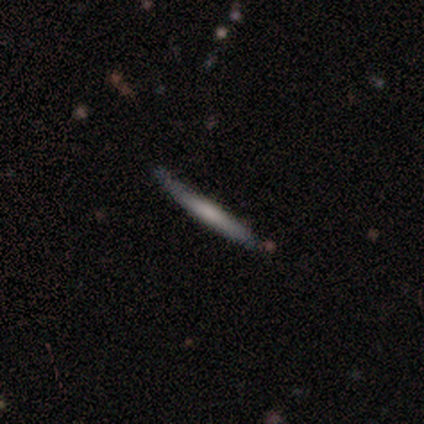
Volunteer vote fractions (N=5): A featured or disk galaxy (80%) viewed edge-on (100%) with a rounded central bulge (75%). Merging: none (100%).